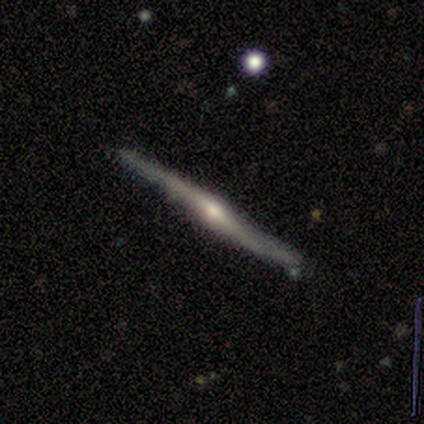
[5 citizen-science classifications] Smooth or featured? featured or disk (100%)
Edge-on disk? yes (100%)
Edge-on bulge? rounded (100%)
Merging? none (80%)